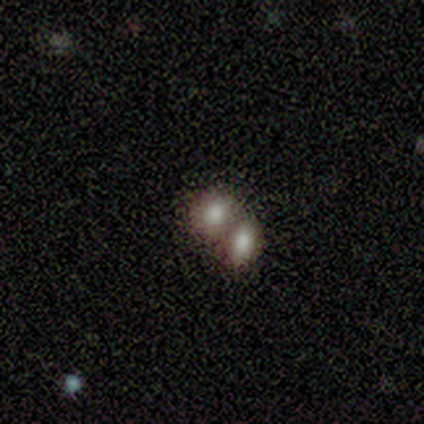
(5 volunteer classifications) smooth_or_featured: smooth (p=0.80) [alt: featured or disk p=0.20]
how_rounded: round (p=0.50) [tied with: in between p=0.50]
merging: merger (p=0.60) [alt: none p=0.40]